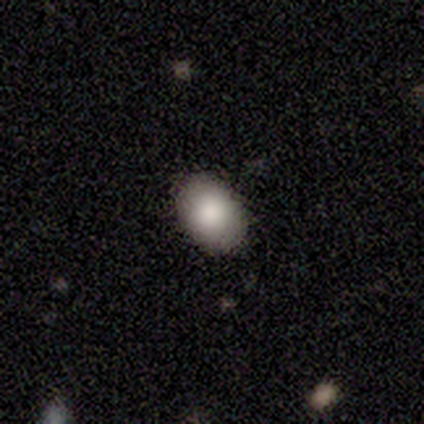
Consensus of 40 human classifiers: smooth-or-featured: smooth: 90% | star or artifact: 8% | featured or disk: 2%
  how-rounded: in between: 81% | round: 19% | cigar-shaped: 0%
  merging: none: 89% | minor disturbance: 11% | major disturbance: 0% | merger: 0%